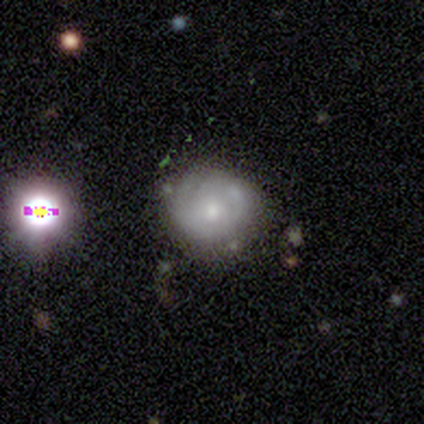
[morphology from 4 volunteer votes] smooth-or-featured: smooth: 50% | featured or disk: 25% | star or artifact: 25%
  how-rounded: round: 100% | in between: 0% | cigar-shaped: 0%
  merging: none: 100% | minor disturbance: 0% | major disturbance: 0% | merger: 0%